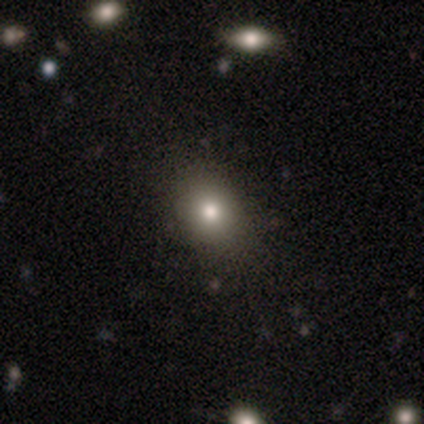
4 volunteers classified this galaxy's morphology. Smooth or featured? smooth (75%)
How rounded? in between (67%)
Merging? none (100%)